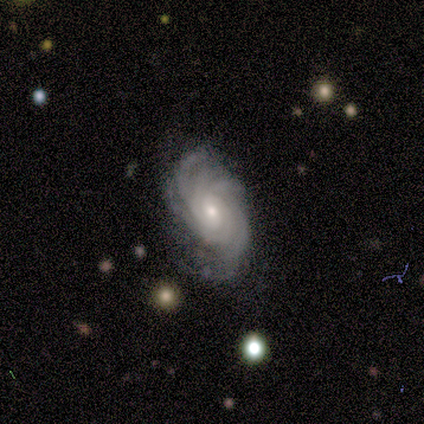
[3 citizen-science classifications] Morphology: type=featured or disk (100%); edge-on=no (100%); bar=no (67%); spiral arms=yes (100%); winding=tight (67%); arm count=4 (33%, tied with more than 4 and can't tell); bulge=small (67%); merging=none (100%).